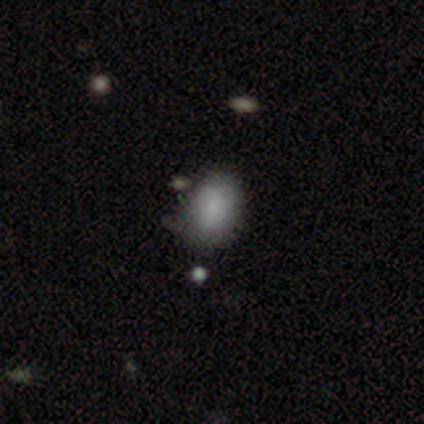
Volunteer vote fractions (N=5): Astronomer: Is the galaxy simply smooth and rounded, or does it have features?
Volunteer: smooth — 80%.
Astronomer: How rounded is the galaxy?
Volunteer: in between — 50%.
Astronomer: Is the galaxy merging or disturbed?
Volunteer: none — 50%, tied with minor disturbance at 50%.